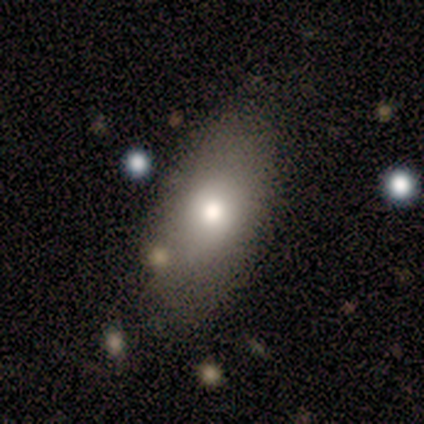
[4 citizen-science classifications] Smooth or featured?
  - smooth: 75% *
  - featured or disk: 25%
  - star or artifact: 0%
How rounded?
  - in between: 100% *
  - round: 0%
  - cigar-shaped: 0%
Merging?
  - none: 50% * (tied)
  - minor disturbance: 50% * (tied)
  - major disturbance: 0%
  - merger: 0%